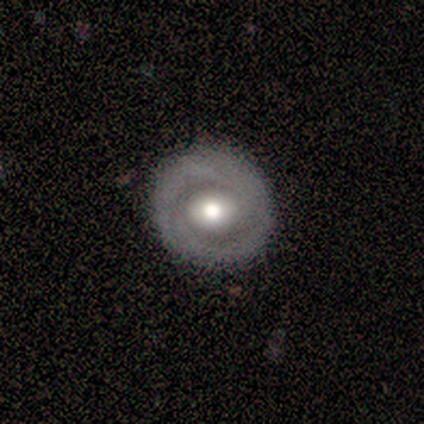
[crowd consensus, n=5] featured or disk 100%, smooth 0%, star or artifact 0%. Down the decision tree: edge-on disk — no (100%); bar — no (80%); spiral arms — no (80%); bulge size — moderate (40%); merging — none (100%).